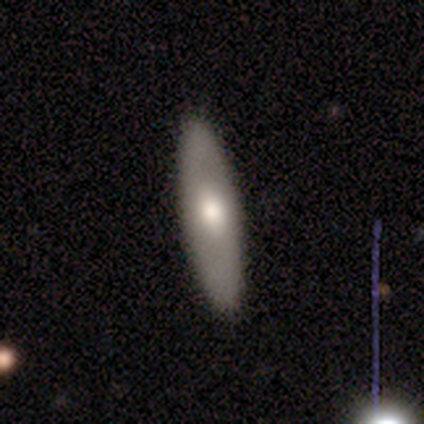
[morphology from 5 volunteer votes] A featured or disk galaxy (60%) with no bar (100%), no spiral arms (100%) and a moderate central bulge (100%). Merging: none (100%).